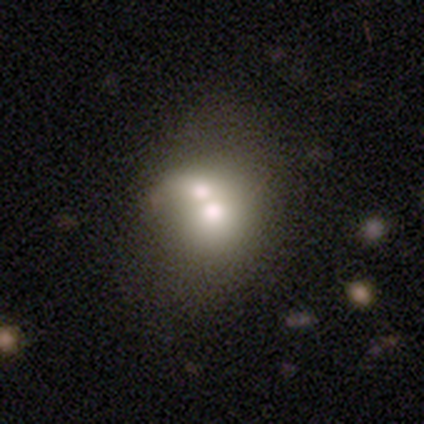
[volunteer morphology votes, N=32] Smooth or featured? smooth (78%)
How rounded? round (52%)
Merging? merger (50%)